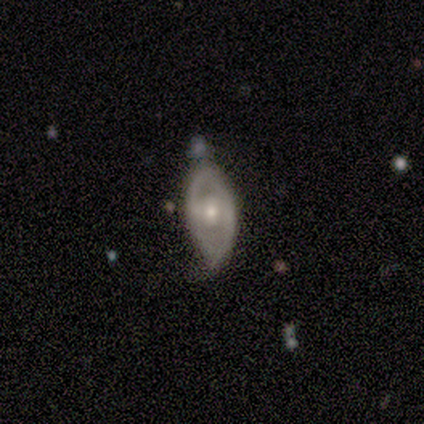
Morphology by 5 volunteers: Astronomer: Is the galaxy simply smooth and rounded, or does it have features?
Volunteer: featured or disk — 80%.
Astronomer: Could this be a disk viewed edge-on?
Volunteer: no — 75%.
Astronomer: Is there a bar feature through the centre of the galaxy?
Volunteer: weak — 67%.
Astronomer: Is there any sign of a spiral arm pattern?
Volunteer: no — 67%.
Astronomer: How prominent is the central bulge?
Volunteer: large — 33%, tied with moderate and small at 33%.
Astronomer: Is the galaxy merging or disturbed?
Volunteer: minor disturbance — 60%.